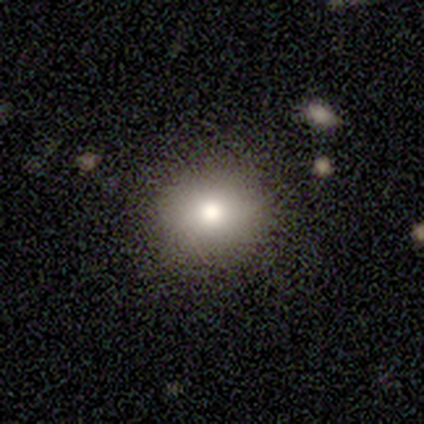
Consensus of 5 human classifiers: A smooth galaxy with no disk features (60%) that is round (100%).

Vote fractions:
- Smooth or featured? smooth: 60% / featured or disk: 20% / star or artifact: 20%
- How rounded? round: 100% / in between: 0% / cigar-shaped: 0%
- Merging? none: 100% / minor disturbance: 0% / major disturbance: 0% / merger: 0%